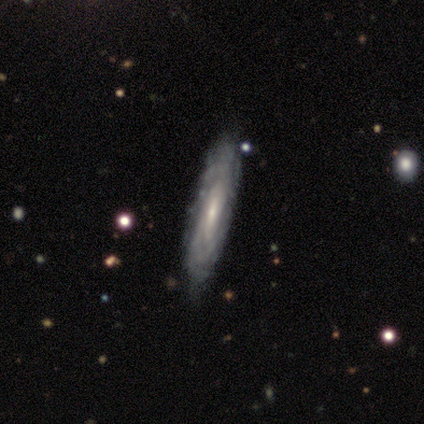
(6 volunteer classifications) smooth-or-featured: featured or disk: 83% | smooth: 17% | star or artifact: 0%
  disk-edge-on: no: 80% | yes: 20%
    bar: weak: 50% (tied) | no: 50% (tied) | strong: 0%
    has-spiral-arms: yes: 75% | no: 25%
      spiral-winding: tight: 67% | medium: 33% | loose: 0%
      spiral-arm-count: can't tell: 67% | 4: 33% | 1: 0% | 2: 0% | 3: 0% | more than 4: 0%
    bulge-size: small: 100% | dominant: 0% | large: 0% | moderate: 0% | none: 0%
  merging: none: 83% | minor disturbance: 17% | major disturbance: 0% | merger: 0%